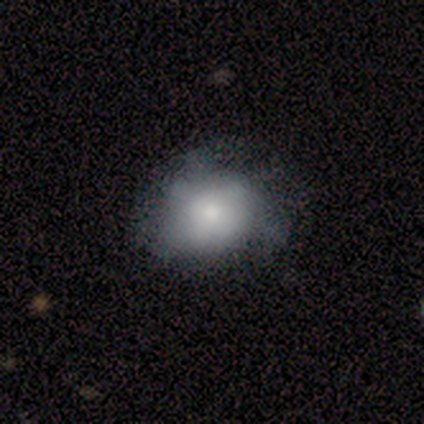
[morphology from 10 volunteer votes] smooth-or-featured: smooth: 70% | featured or disk: 30% | star or artifact: 0%
  how-rounded: round: 57% | in between: 43% | cigar-shaped: 0%
  merging: none: 50% | minor disturbance: 40% | major disturbance: 10% | merger: 0%